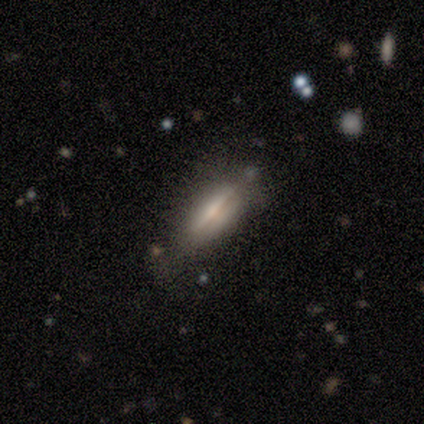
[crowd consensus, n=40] smooth_or_featured: smooth (p=0.57) [alt: featured or disk p=0.38]
how_rounded: cigar-shaped (p=0.52) [alt: in between p=0.48]
merging: none (p=0.71) [alt: minor disturbance p=0.13]